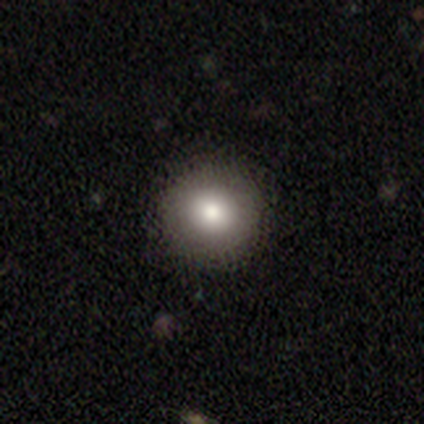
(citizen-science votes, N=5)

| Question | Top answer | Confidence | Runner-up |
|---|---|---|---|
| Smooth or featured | smooth | 80% | star or artifact (20%) |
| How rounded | round | 100% | — |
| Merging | none | 75% | minor disturbance (25%) |